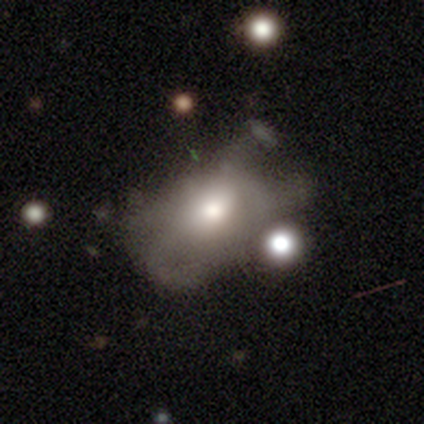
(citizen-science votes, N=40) featured or disk 55%, smooth 45%, star or artifact 0%. Down the decision tree: edge-on disk — no (100%); bar — no (91%); spiral arms — no (91%); bulge size — moderate (86%); merging — major disturbance (25%).